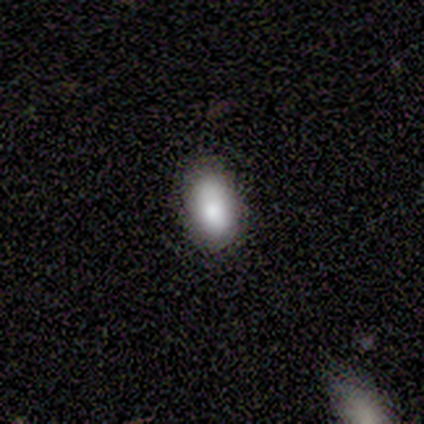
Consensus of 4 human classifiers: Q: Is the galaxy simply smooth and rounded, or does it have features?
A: smooth — 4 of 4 (100%).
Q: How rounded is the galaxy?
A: in between — 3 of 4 (75%).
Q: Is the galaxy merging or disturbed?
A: none — 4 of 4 (100%).